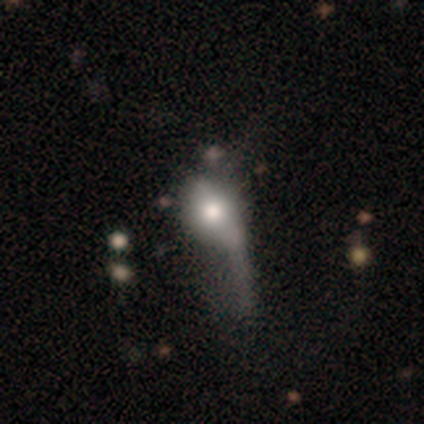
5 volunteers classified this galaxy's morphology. Smooth or featured? 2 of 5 (40%, tied with featured or disk) said smooth. How rounded? 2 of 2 (100%) said in between. Merging? 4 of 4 (100%) said major disturbance.